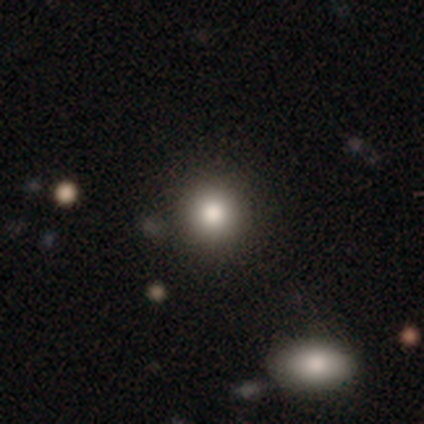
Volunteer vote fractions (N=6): This appears to be a smooth galaxy with no disk features (67%) that is round (100%). Merging: none (100%).